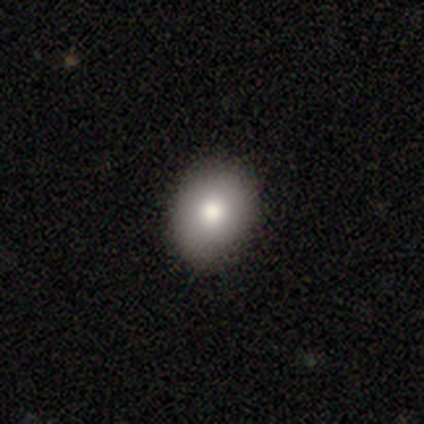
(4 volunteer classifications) Smooth or featured?
  - smooth: 75% *
  - star or artifact: 25%
  - featured or disk: 0%
How rounded?
  - round: 67% *
  - in between: 33%
  - cigar-shaped: 0%
Merging?
  - none: 100% *
  - minor disturbance: 0%
  - major disturbance: 0%
  - merger: 0%